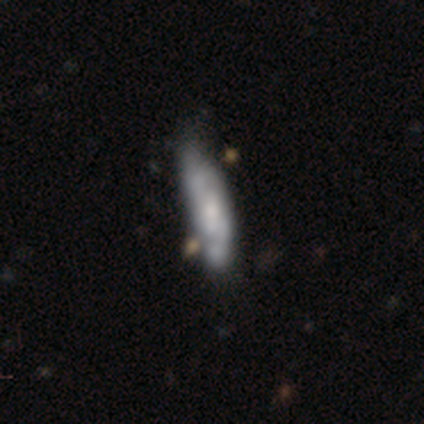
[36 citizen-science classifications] Q: Smooth or featured?
A: featured or disk (72%); runner-up: smooth (25%)
Q: Edge-on disk?
A: no (77%); runner-up: yes (23%)
Q: Bar?
A: no (60%); runner-up: weak (35%)
Q: Spiral arms?
A: yes (85%); runner-up: no (15%)
Q: Spiral winding?
A: medium (59%); runner-up: loose (24%)
Q: Spiral arm count?
A: 2 (47%); runner-up: can't tell (41%)
Q: Bulge size?
A: small (55%); runner-up: moderate (30%)
Q: Merging?
A: none (40%); runner-up: minor disturbance (26%)